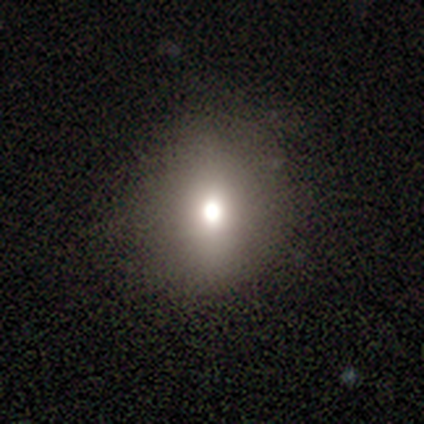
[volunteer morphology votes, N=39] smooth-or-featured: smooth: 56% | star or artifact: 26% | featured or disk: 18%
  how-rounded: round: 59% | in between: 36% | cigar-shaped: 5%
  merging: none: 79% | minor disturbance: 17% | major disturbance: 3% | merger: 0%